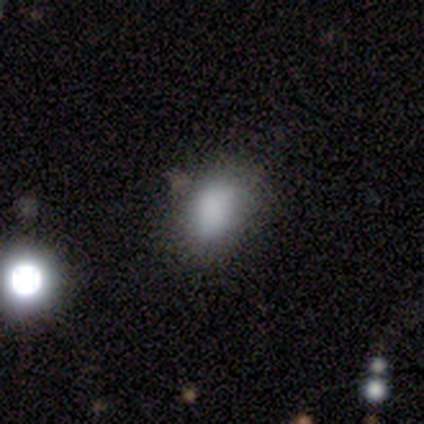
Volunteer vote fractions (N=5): Smooth or featured?
  - smooth: 80% *
  - featured or disk: 20%
  - star or artifact: 0%
How rounded?
  - in between: 100% *
  - round: 0%
  - cigar-shaped: 0%
Merging?
  - none: 80% *
  - minor disturbance: 20%
  - major disturbance: 0%
  - merger: 0%